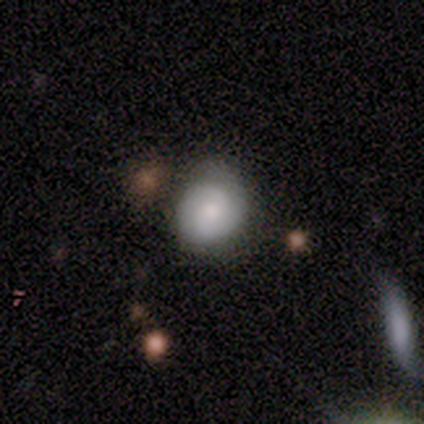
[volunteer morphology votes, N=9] smooth-or-featured: smooth: 56% | featured or disk: 44% | star or artifact: 0%
  how-rounded: round: 60% | in between: 40% | cigar-shaped: 0%
  merging: none: 67% | minor disturbance: 33% | major disturbance: 0% | merger: 0%